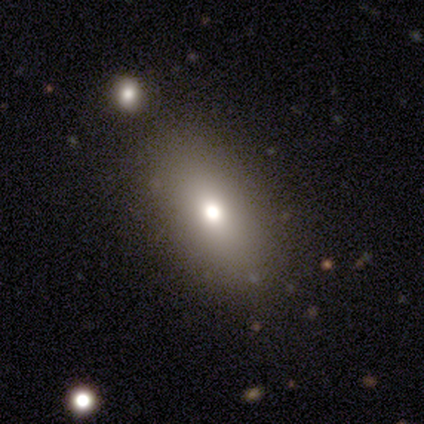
Smooth or featured? 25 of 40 (62%) said smooth. How rounded? 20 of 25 (80%) said in between. Merging? 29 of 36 (81%) said none.